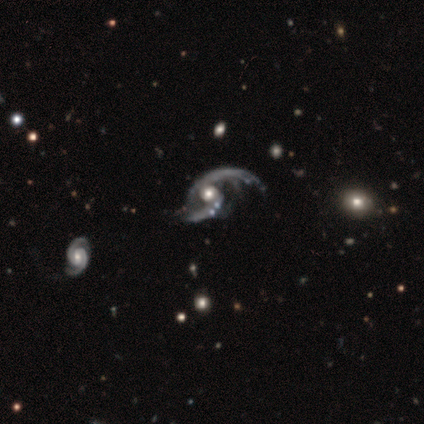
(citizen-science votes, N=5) Overall: featured or disk (100%). Edge-on disk: no (100%). Bar: weak (60%; no 40%). Spiral arms: yes (100%). Spiral arm count: 2 (100%). Spiral winding: loose (60%; medium 40%). Bulge size: moderate (60%; large 40%). Merging: none (60%; major disturbance 20%).